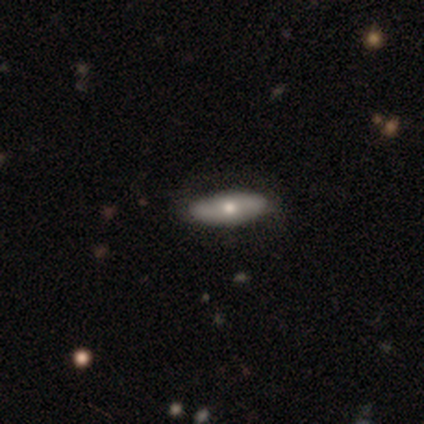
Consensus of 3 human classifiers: A featured or disk galaxy (100%) with no bar (100%), 2 (100%) tight (100%) spiral arms (50%, tied with no) and a moderate central bulge (100%).

Vote fractions:
- Smooth or featured? featured or disk: 100% / smooth: 0% / star or artifact: 0%
- Edge-on disk? no: 67% / yes: 33%
- Bar? no: 100% / strong: 0% / weak: 0%
- Spiral arms? yes: 50% (tied) / no: 50% (tied)
- Spiral winding? tight: 100% / medium: 0% / loose: 0%
- Spiral arm count? 2: 100% / 1: 0% / 3: 0% / 4: 0% / more than 4: 0% / can't tell: 0%
- Bulge size? moderate: 100% / dominant: 0% / large: 0% / small: 0% / none: 0%
- Merging? none: 67% / minor disturbance: 33% / major disturbance: 0% / merger: 0%